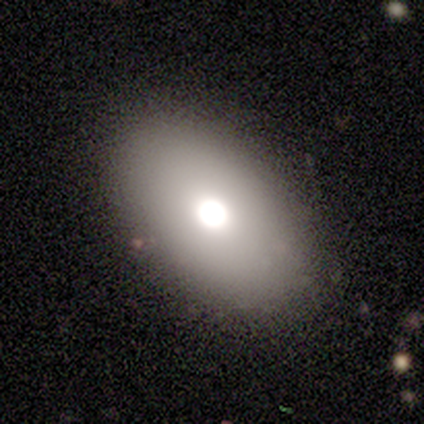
Q: Smooth or featured?
A: smooth (62%); runner-up: featured or disk (30%)
Q: How rounded?
A: in between (84%); runner-up: round (16%)
Q: Merging?
A: none (84%); runner-up: minor disturbance (11%)